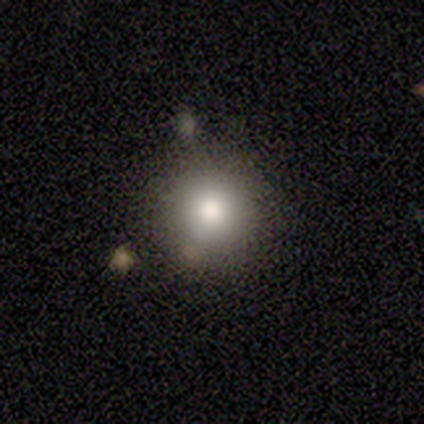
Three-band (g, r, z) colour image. It shows a smooth galaxy with no disk features (80%) that is round (97%). Merging: none (90%).